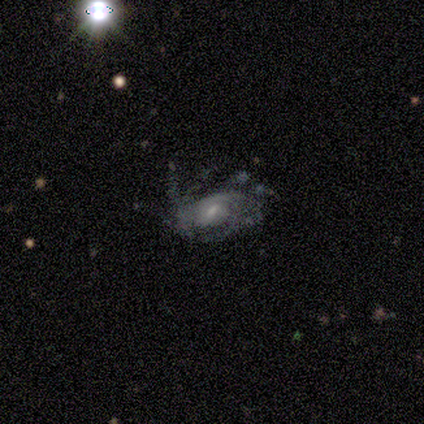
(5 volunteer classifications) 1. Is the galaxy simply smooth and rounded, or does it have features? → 100% featured or disk, 0% smooth, 0% star or artifact.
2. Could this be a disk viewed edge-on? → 100% no, 0% yes.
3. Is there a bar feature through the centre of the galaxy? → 60% weak, 40% no, 0% strong.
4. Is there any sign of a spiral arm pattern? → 80% yes, 20% no.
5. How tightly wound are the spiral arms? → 50% tight (tied), 50% medium (tied), 0% loose.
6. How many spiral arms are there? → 50% 3, 25% 1, 25% can't tell, 0% 2, 0% 4, 0% more than 4.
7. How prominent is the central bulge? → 100% small, 0% dominant, 0% large, 0% moderate, 0% none.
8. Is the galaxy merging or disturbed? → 60% none, 20% minor disturbance, 20% major disturbance, 0% merger.